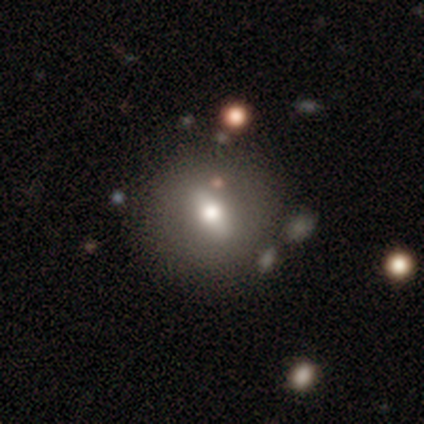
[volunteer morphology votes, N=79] A smooth galaxy with no disk features (58%) that is round (59%). Merging: none (38%).